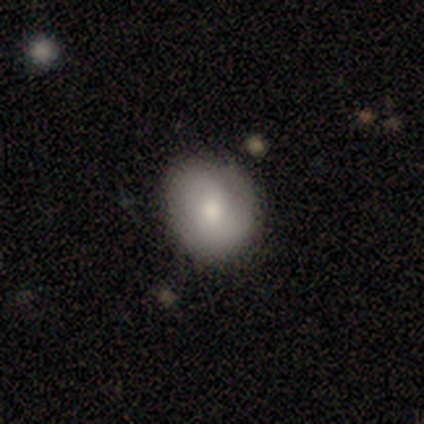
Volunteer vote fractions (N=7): smooth_or_featured: smooth (p=0.71) [alt: star or artifact p=0.29]
how_rounded: round (p=0.60) [alt: in between p=0.40]
merging: minor disturbance (p=0.60) [alt: none p=0.40]